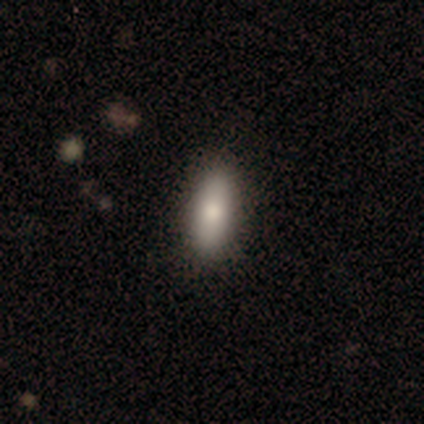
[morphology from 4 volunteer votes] Smooth or featured? 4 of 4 (100%) said smooth. How rounded? 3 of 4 (75%) said in between. Merging? 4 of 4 (100%) said none.